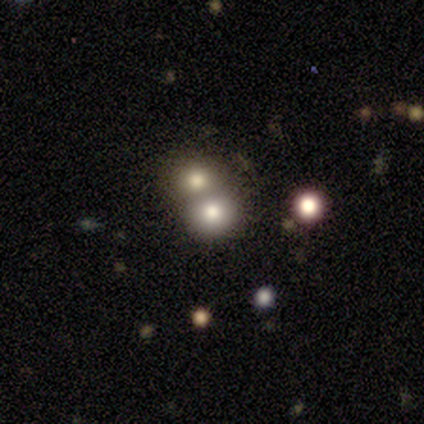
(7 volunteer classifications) smooth_or_featured: star or artifact (p=0.57) [alt: smooth p=0.43]